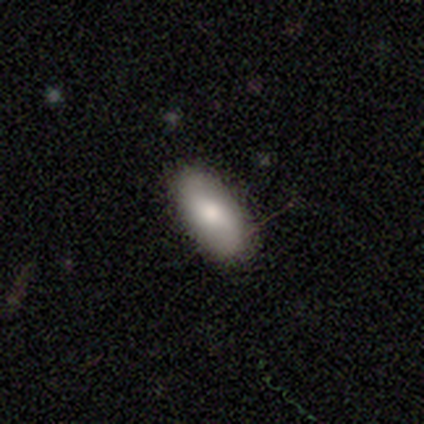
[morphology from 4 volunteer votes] Smooth or featured: smooth — 75% (featured or disk — 25%)
How rounded: in between — 100%
Merging: none — 100%